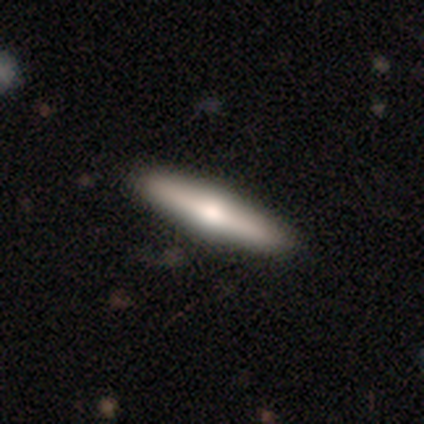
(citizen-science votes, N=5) Q: Smooth or featured?
A: featured or disk (80%); runner-up: smooth (20%)
Q: Edge-on disk?
A: yes (100%)
Q: Edge-on bulge?
A: rounded (75%); runner-up: boxy (25%)
Q: Merging?
A: none (80%); runner-up: merger (20%)